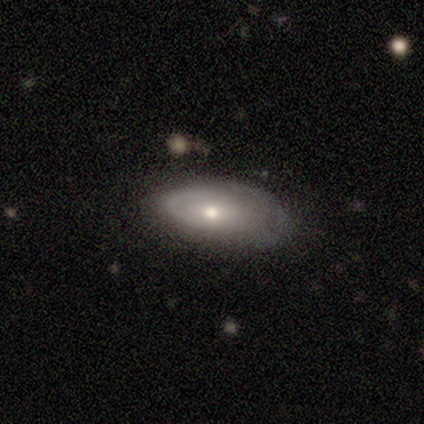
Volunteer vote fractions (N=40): Volunteers were most divided on "spiral arm count" (2-way tie): 1: 40%, can't tell: 40%, 2: 20%, 3: 0%, 4: 0%, more than 4: 0%. More confident: bar — no (91%); edge-on disk — no (88%); merging — none (74%); spiral arms — yes (68%); bulge size — moderate (64%); smooth or featured — featured or disk (62%); spiral winding — tight (53%).